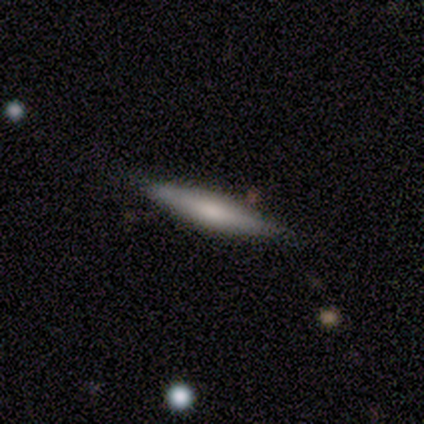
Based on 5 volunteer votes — A smooth galaxy with no disk features (60%) that is cigar-shaped (100%). Merging: none (80%).